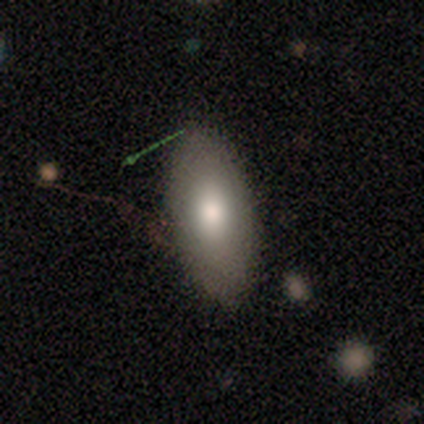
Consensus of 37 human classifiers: Smooth or featured? smooth (81%)
How rounded? in between (90%)
Merging? none (77%)